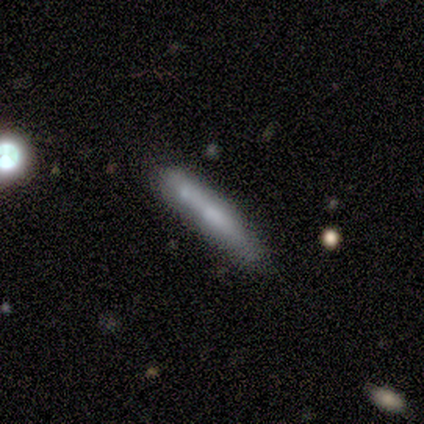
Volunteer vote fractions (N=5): Smooth or featured?
  - smooth: 60% *
  - featured or disk: 40%
  - star or artifact: 0%
How rounded?
  - cigar-shaped: 100% *
  - round: 0%
  - in between: 0%
Merging?
  - none: 60% *
  - minor disturbance: 20%
  - merger: 20%
  - major disturbance: 0%